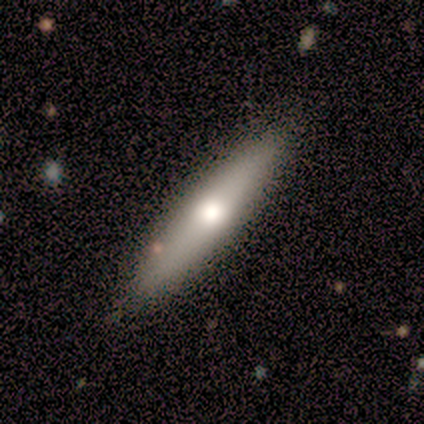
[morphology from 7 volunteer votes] A featured or disk galaxy (71%) viewed edge-on (100%) with a rounded central bulge (80%).

Vote fractions:
- Smooth or featured? featured or disk: 71% / smooth: 29% / star or artifact: 0%
- Edge-on disk? yes: 100% / no: 0%
- Edge-on bulge? rounded: 80% / none: 20% / boxy: 0%
- Merging? none: 86% / merger: 14% / minor disturbance: 0% / major disturbance: 0%